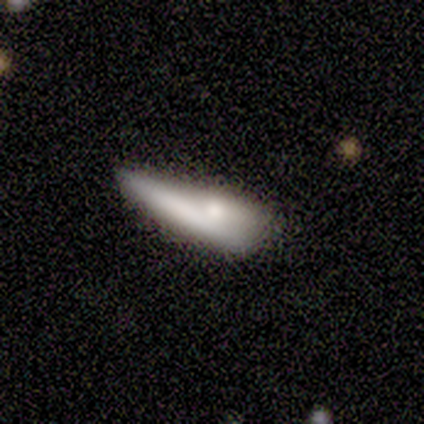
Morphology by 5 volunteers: smooth_or_featured: smooth (p=0.40) [tied with: featured or disk p=0.40]
how_rounded: in between (p=0.50) [tied with: cigar-shaped p=0.50]
merging: minor disturbance (p=0.75) [alt: merger p=0.25]